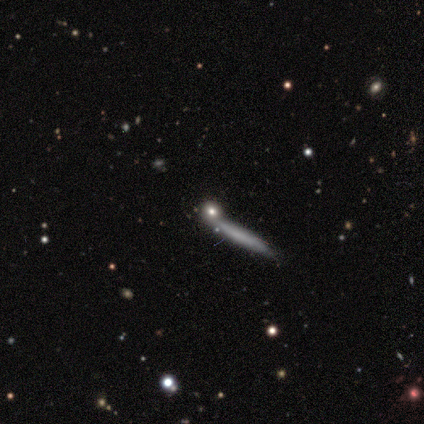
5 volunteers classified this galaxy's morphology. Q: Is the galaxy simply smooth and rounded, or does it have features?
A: smooth — 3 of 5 (60%).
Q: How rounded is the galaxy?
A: cigar-shaped — 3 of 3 (100%).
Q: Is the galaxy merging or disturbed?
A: none — 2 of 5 (40%, tied with major disturbance).